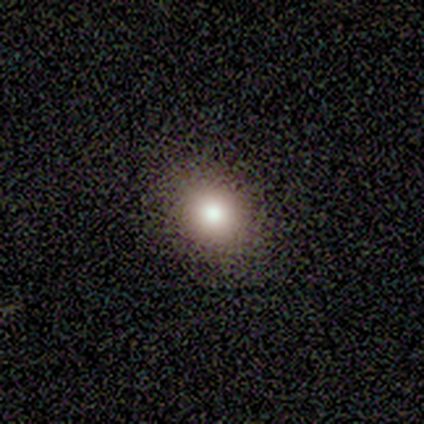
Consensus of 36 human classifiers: smooth 72%, star or artifact 19%, featured or disk 8%. Down the decision tree: how rounded — round (62%); merging — none (86%).